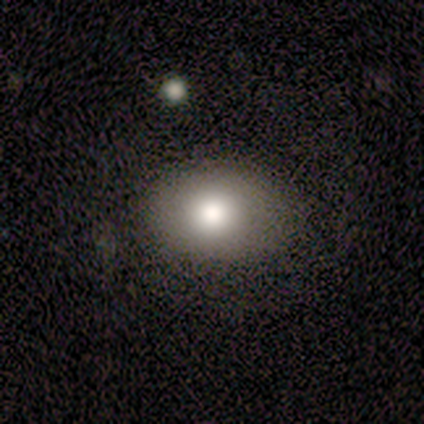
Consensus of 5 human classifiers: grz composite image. It shows a smooth galaxy with no disk features (100%) that is in between round and cigar-shaped (80%). Merging: none (60%).